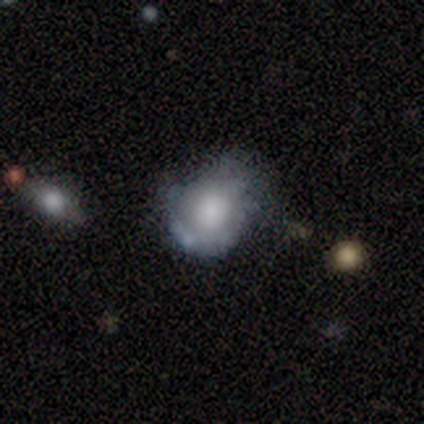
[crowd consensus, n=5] This appears to be a smooth galaxy with no disk features (80%) that is round (100%). Merging: none (40%, tied with minor disturbance).